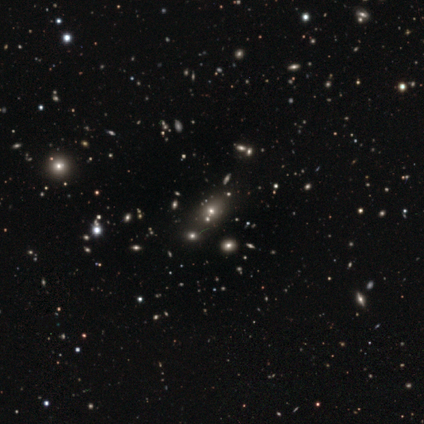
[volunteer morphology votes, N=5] Smooth or featured?
  - star or artifact: 60% *
  - smooth: 20%
  - featured or disk: 20%